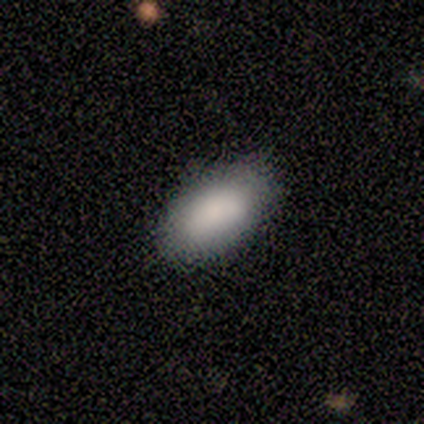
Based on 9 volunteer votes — Smooth or featured? smooth (100%)
How rounded? in between (100%)
Merging? none (67%)